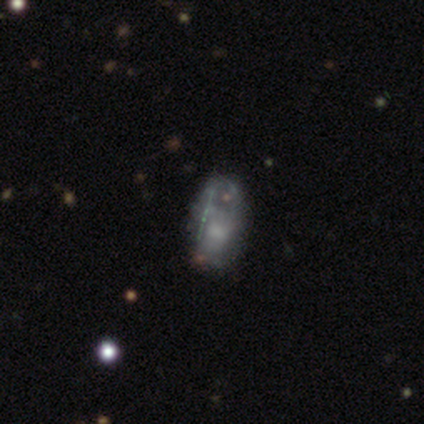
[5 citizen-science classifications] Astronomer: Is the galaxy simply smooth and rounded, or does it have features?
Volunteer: featured or disk — 60% (runner-up: smooth, 40%).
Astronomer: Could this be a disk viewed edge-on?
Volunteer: no — 100%.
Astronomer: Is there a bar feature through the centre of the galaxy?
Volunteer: no — 100%.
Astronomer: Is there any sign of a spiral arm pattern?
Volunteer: no — 100%.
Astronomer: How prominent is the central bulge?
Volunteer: moderate — 67%.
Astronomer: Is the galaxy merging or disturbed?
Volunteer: minor disturbance — 60%.